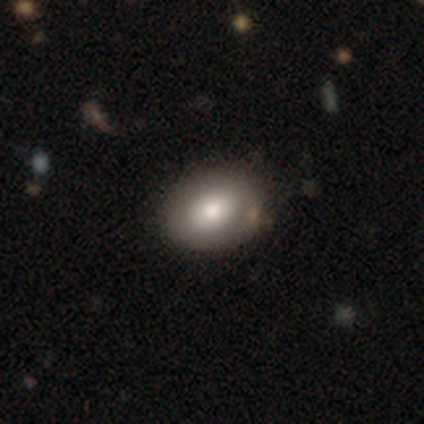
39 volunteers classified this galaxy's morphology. This is likely a smooth galaxy (67%). How rounded: likely in between (73%). Merging: likely none (62%).